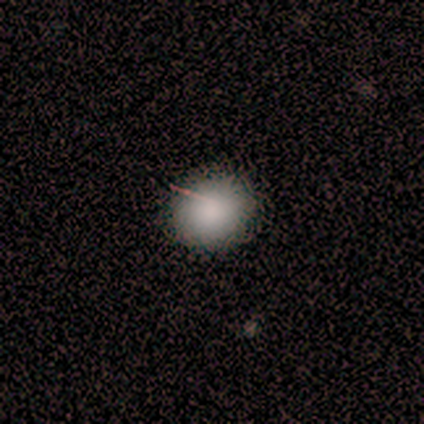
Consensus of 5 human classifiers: smooth 100%, featured or disk 0%, star or artifact 0%. Down the decision tree: how rounded — in between (60%); merging — none (80%).